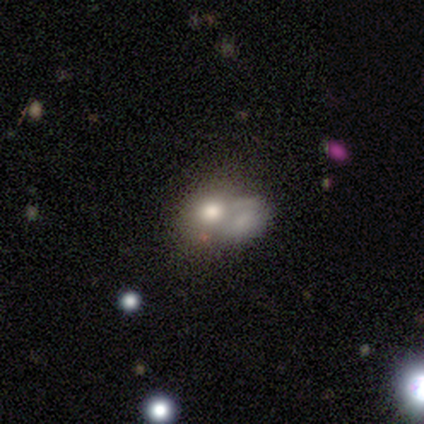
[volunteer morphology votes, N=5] smooth 40% (tied), featured or disk 40% (tied), star or artifact 20%. Down the decision tree: how rounded — round (100%); merging — merger (75%).